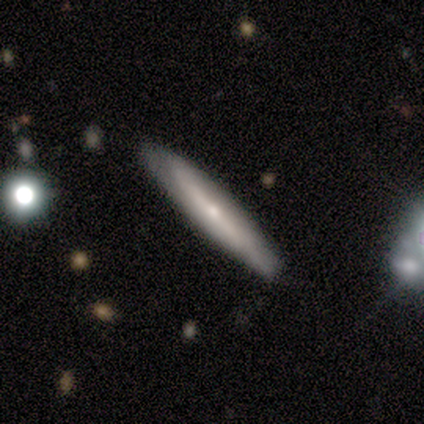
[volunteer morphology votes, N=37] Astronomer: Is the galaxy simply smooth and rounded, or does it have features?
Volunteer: featured or disk — 57% (runner-up: smooth, 43%).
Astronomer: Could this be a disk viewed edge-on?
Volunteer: yes — 76%.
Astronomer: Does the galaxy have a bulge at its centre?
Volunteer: rounded — 69%.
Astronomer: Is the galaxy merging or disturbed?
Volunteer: none — 84%.